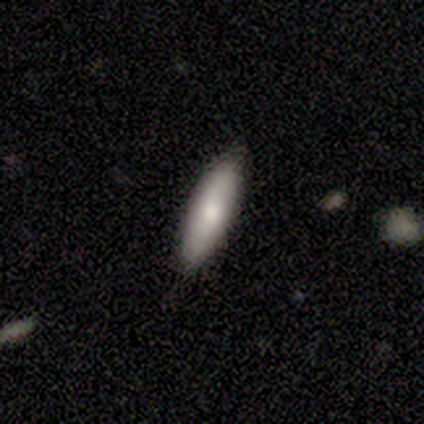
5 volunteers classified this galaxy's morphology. A smooth galaxy with no disk features (100%) that is cigar-shaped (60%).

Vote fractions:
- Smooth or featured? smooth: 100% / featured or disk: 0% / star or artifact: 0%
- How rounded? cigar-shaped: 60% / in between: 40% / round: 0%
- Merging? none: 60% / minor disturbance: 40% / major disturbance: 0% / merger: 0%